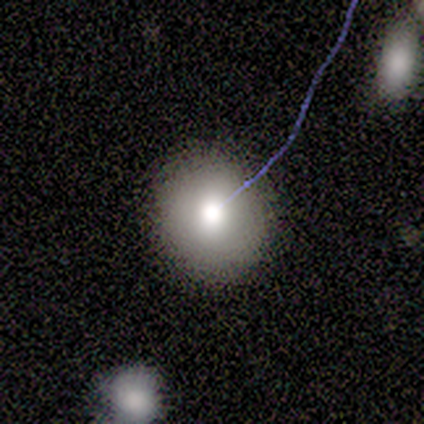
Overall: smooth (73%). How rounded: round (100%). Merging: none (89%).